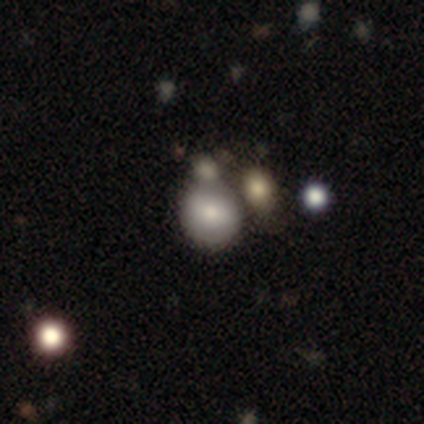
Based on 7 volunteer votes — A smooth galaxy with no disk features (43%) that is round (67%). Merging: none (60%).